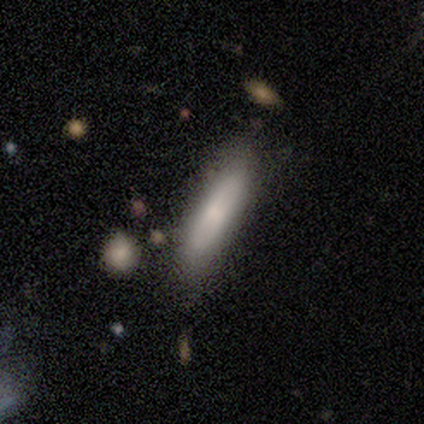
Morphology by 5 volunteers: smooth-or-featured: smooth: 100% | featured or disk: 0% | star or artifact: 0%
  how-rounded: cigar-shaped: 80% | in between: 20% | round: 0%
  merging: none: 80% | merger: 20% | minor disturbance: 0% | major disturbance: 0%